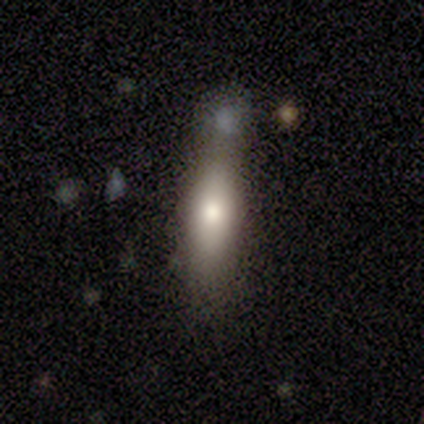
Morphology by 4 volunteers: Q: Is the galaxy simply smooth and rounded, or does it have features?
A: smooth — 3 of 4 (75%).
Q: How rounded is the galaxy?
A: in between — 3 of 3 (100%).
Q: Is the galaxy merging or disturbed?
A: none — 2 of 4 (50%, tied with minor disturbance).